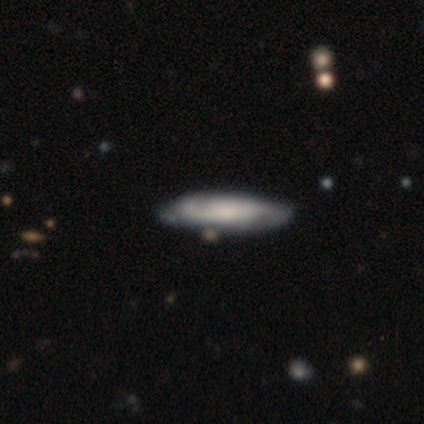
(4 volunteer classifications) A featured or disk galaxy (75%) viewed edge-on (67%) with a boxy central bulge (50%, tied with rounded).

Vote fractions:
- Smooth or featured? featured or disk: 75% / star or artifact: 25% / smooth: 0%
- Edge-on disk? yes: 67% / no: 33%
- Edge-on bulge? boxy: 50% (tied) / rounded: 50% (tied) / none: 0%
- Merging? none: 33% (tied) / minor disturbance: 33% (tied) / major disturbance: 33% (tied) / merger: 0%